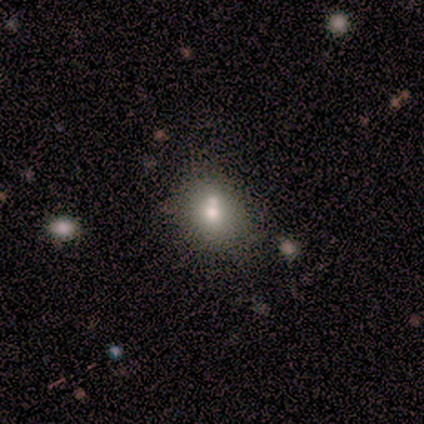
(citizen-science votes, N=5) This is clearly a smooth galaxy (80%). How rounded: possibly round (50%, tied with in between). Merging: possibly none (50%).